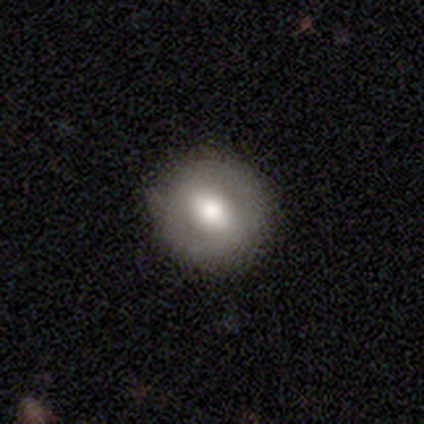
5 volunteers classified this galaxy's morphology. Overall: featured or disk (60%; smooth 20%). Edge-on disk: no (100%). Bar: weak (67%; no 33%). Spiral arms: no (100%). Bulge size: moderate (67%; dominant 33%). Merging: none (100%).